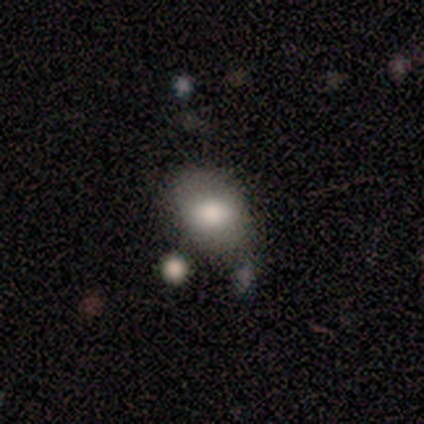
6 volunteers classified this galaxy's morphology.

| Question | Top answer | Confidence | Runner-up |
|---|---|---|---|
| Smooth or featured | smooth | 83% | featured or disk (17%) |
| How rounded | in between | 80% | cigar-shaped (20%) |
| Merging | none | 83% | minor disturbance (17%) |